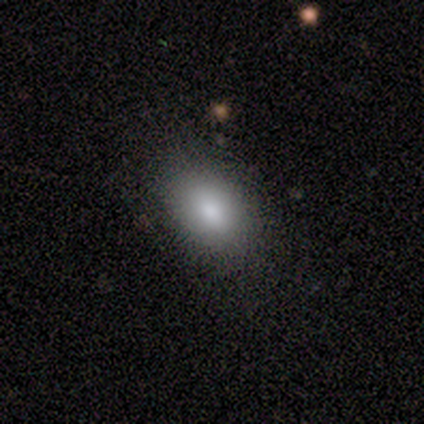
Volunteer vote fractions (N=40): A smooth galaxy with no disk features (90%) that is in between round and cigar-shaped (81%).

Vote fractions:
- Smooth or featured? smooth: 90% / star or artifact: 8% / featured or disk: 2%
- How rounded? in between: 81% / round: 19% / cigar-shaped: 0%
- Merging? none: 76% / major disturbance: 5% / merger: 5% / minor disturbance: 3%